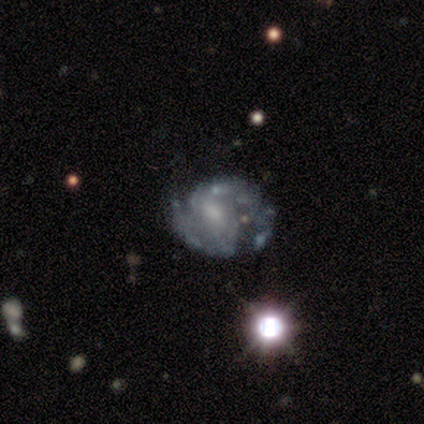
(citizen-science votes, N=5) A featured or disk galaxy (100%) with a weak bar (60%), 2 (100%) medium (67%) spiral arms (60%) and a moderate central bulge (40%, tied with none).

Vote fractions:
- Smooth or featured? featured or disk: 100% / smooth: 0% / star or artifact: 0%
- Edge-on disk? no: 100% / yes: 0%
- Bar? weak: 60% / no: 40% / strong: 0%
- Spiral arms? yes: 60% / no: 40%
- Spiral winding? medium: 67% / tight: 33% / loose: 0%
- Spiral arm count? 2: 100% / 1: 0% / 3: 0% / 4: 0% / more than 4: 0% / can't tell: 0%
- Bulge size? moderate: 40% (tied) / none: 40% (tied) / small: 20% / dominant: 0% / large: 0%
- Merging? minor disturbance: 60% / none: 40% / major disturbance: 0% / merger: 0%